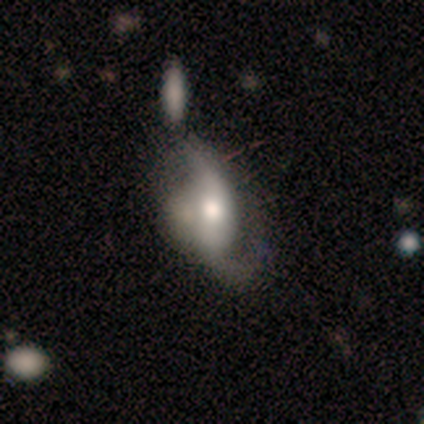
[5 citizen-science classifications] featured or disk 100%, smooth 0%, star or artifact 0%. Down the decision tree: edge-on disk — no (80%); bar — weak (50%, tied with no); spiral arms — yes (75%); spiral arm count — 2 (67%); spiral winding — loose (100%); bulge size — moderate (50%, tied with small); merging — major disturbance (60%).